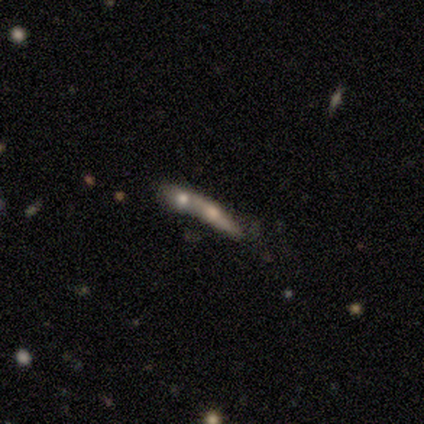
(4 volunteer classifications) A smooth galaxy with no disk features (75%) that is cigar-shaped (67%). Merging: merger (75%).